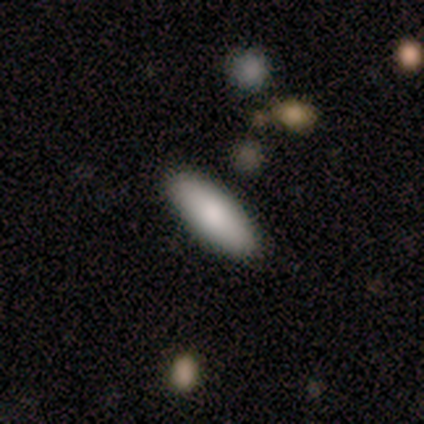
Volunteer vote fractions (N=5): Smooth or featured?
  - smooth: 80% *
  - featured or disk: 20%
  - star or artifact: 0%
How rounded?
  - in between: 100% *
  - round: 0%
  - cigar-shaped: 0%
Merging?
  - none: 100% *
  - minor disturbance: 0%
  - major disturbance: 0%
  - merger: 0%